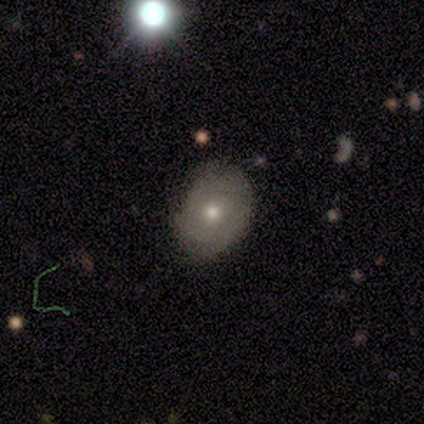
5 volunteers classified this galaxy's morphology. A featured or disk galaxy (40%, tied with star or artifact) with no bar (100%), 3 (100%) tight (100%) spiral arms (50%, tied with no) and a moderate central bulge (100%). Merging: none (100%).